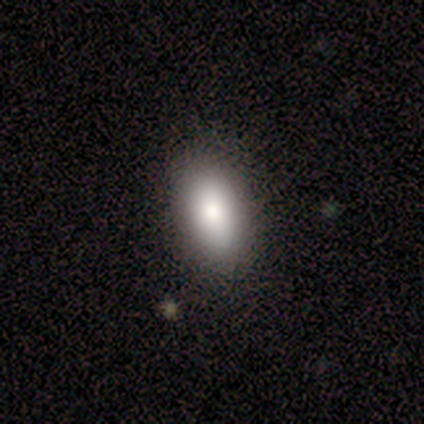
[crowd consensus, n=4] Overall: smooth (100%). How rounded: in between (100%). Merging: none (100%).